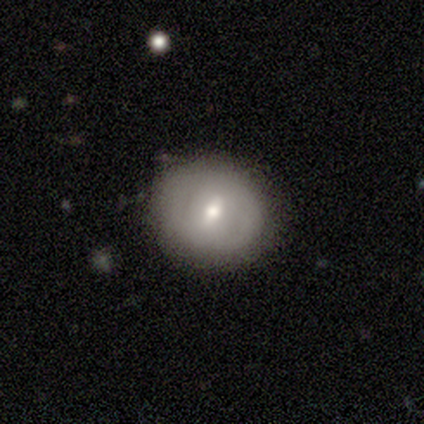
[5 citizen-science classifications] Morphology: type=featured or disk (60%); edge-on=no (100%); bar=weak (100%); spiral arms=no (100%); bulge=small (67%); merging=none (80%).